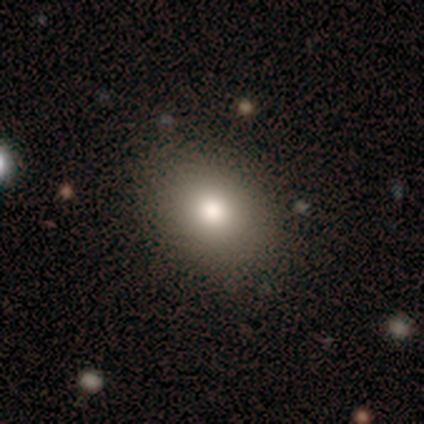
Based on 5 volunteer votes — This appears to be a smooth galaxy with no disk features (60%) that is in between round and cigar-shaped (100%). Merging: none (50%).